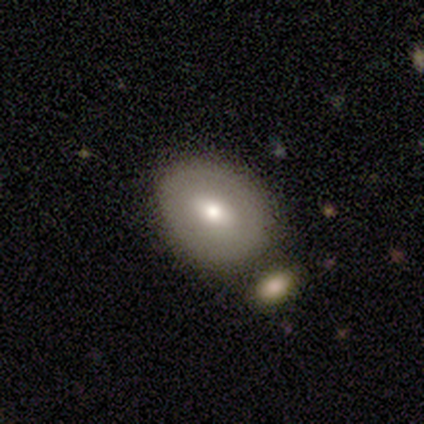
smooth 65%, featured or disk 30%, star or artifact 5%. Down the decision tree: how rounded — in between (54%); merging — none (63%).